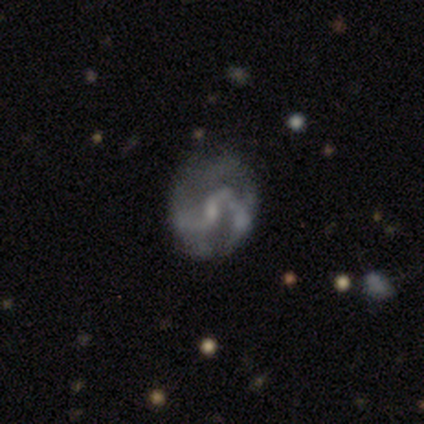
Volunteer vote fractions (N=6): A featured or disk galaxy (100%) with a weak bar (67%), 2 (75%) loose (75%) spiral arms (67%) and a small central bulge (67%). Merging: none (67%).